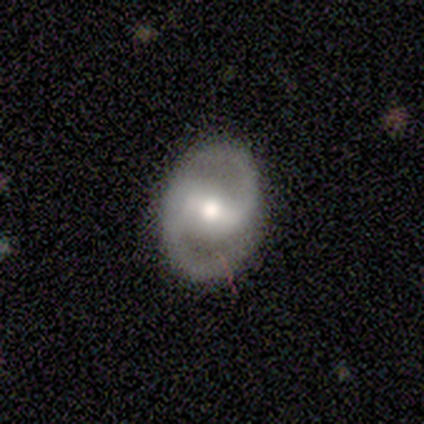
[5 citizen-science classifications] smooth_or_featured: featured or disk (p=0.80) [alt: star or artifact p=0.20]
disk_edge_on: no (p=1.00)
bar: strong (p=0.50) [tied with: weak p=0.50]
has_spiral_arms: yes (p=1.00)
spiral_winding: medium (p=0.75) [alt: tight p=0.25]
spiral_arm_count: 2 (p=1.00)
bulge_size: moderate (p=0.50) [alt: large p=0.25]
merging: none (p=1.00)